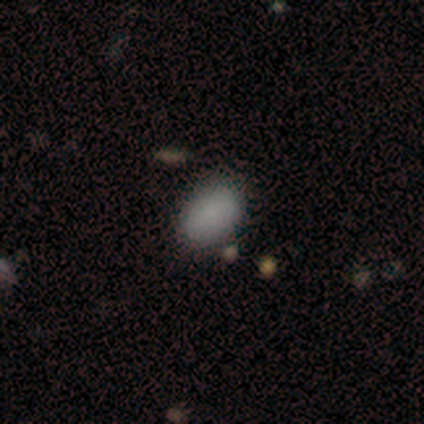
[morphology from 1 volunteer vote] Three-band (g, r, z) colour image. It shows a star or artifact, not a galaxy (100%).